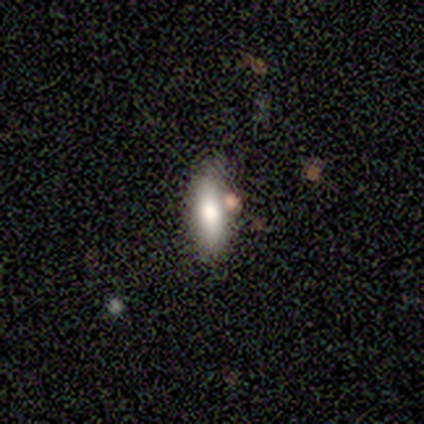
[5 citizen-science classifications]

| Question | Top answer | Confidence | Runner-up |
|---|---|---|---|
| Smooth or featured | smooth | 80% | featured or disk (20%) |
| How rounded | cigar-shaped | 100% | — |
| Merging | none | 80% | minor disturbance (20%) |